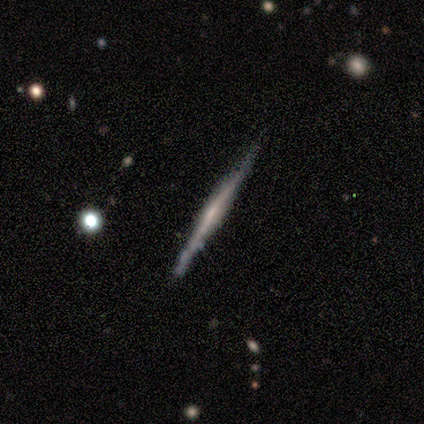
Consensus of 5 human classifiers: Smooth or featured: featured or disk — 80% (smooth — 20%)
Edge-on disk: yes — 100%
Edge-on bulge: none — 50% (boxy — 25%)
Merging: none — 80% (minor disturbance — 20%)